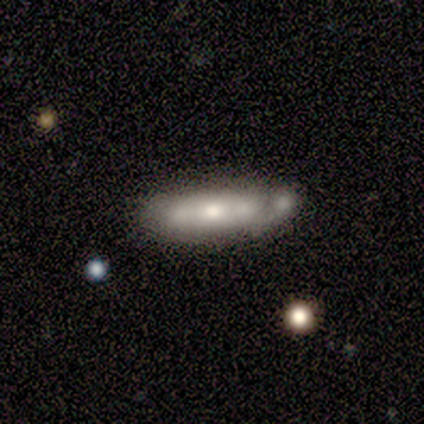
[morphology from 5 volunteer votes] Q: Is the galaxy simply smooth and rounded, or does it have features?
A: featured or disk — 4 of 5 (80%).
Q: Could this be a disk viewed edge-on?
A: no — 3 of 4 (75%).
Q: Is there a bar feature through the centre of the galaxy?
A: no — 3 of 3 (100%).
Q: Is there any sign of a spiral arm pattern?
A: no — 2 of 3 (67%).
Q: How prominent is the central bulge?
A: large — 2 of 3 (67%).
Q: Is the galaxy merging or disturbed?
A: none — 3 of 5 (60%).